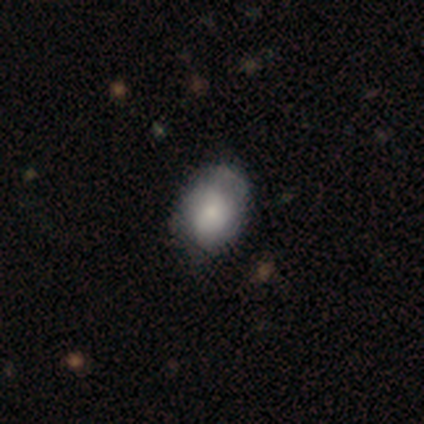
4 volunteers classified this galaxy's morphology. This is possibly a smooth galaxy (50%, tied with featured or disk). How rounded: possibly round (50%, tied with in between). Merging: likely minor disturbance (75%).